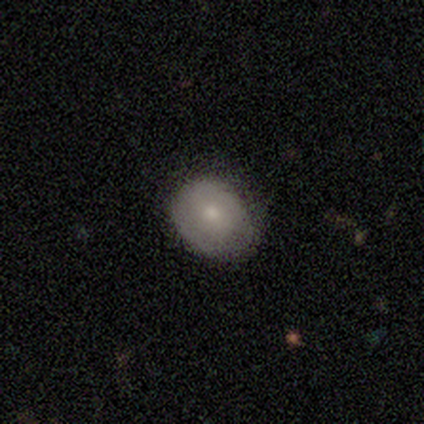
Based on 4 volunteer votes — Overall: smooth (75%). How rounded: round (67%; in between 33%). Merging: none (100%).